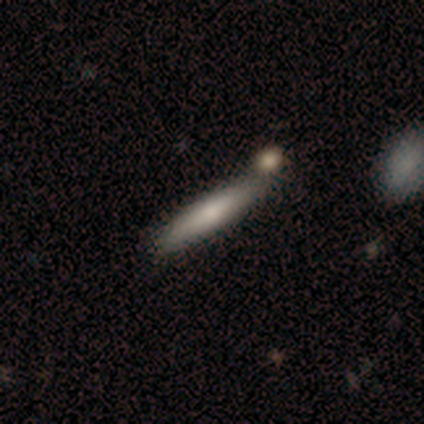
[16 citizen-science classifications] Morphology: type=smooth (81%); roundness=cigar-shaped (85%); merging=none (88%).